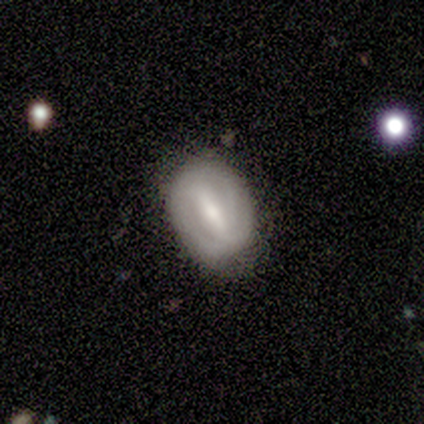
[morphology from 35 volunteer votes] smooth-or-featured: featured or disk: 69% | smooth: 31% | star or artifact: 0%
  disk-edge-on: no: 96% | yes: 4%
    bar: strong: 83% | weak: 13% | no: 4%
    has-spiral-arms: no: 52% | yes: 48%
    bulge-size: moderate: 39% | small: 35% | large: 13% | none: 9% | dominant: 4%
  merging: none: 74% | minor disturbance: 20% | major disturbance: 6% | merger: 0%